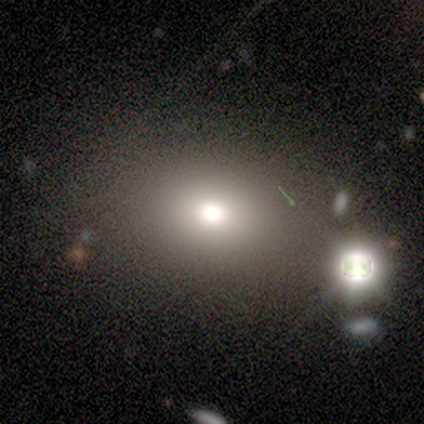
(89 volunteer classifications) smooth 67%, star or artifact 27%, featured or disk 6%. Down the decision tree: how rounded — round (53%); merging — none (82%).